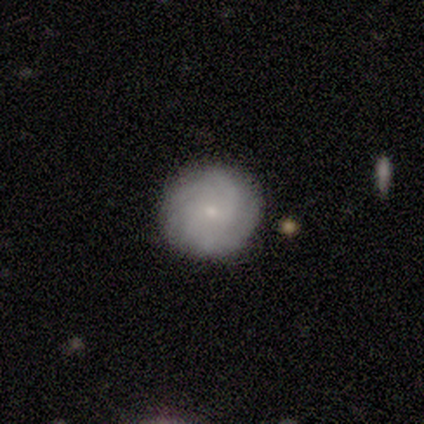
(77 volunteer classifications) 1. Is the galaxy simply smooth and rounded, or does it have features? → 60% featured or disk, 32% smooth, 8% star or artifact.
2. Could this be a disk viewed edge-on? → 100% no, 0% yes.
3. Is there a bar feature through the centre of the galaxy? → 80% no, 17% weak, 2% strong.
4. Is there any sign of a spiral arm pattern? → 91% yes, 9% no.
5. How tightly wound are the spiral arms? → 55% tight, 38% medium, 7% loose.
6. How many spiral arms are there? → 55% can't tell, 14% 4, 12% 2, 12% 3, 7% more than 4, 0% 1.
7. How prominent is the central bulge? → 83% small, 11% moderate, 7% none, 0% dominant, 0% large.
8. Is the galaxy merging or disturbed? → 54% none, 3% minor disturbance, 0% major disturbance, 0% merger.